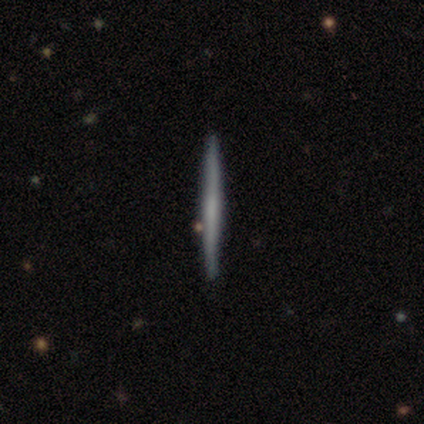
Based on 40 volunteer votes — Smooth or featured?
  - smooth: 50% * (tied)
  - featured or disk: 50% * (tied)
  - star or artifact: 0%
How rounded?
  - cigar-shaped: 100% *
  - round: 0%
  - in between: 0%
Merging?
  - none: 92% *
  - minor disturbance: 5%
  - merger: 2%
  - major disturbance: 0%